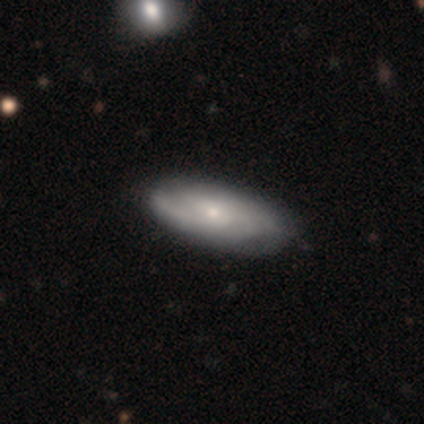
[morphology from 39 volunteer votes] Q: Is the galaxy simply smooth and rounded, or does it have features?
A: featured or disk — 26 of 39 (67%).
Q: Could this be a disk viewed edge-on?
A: no — 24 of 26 (92%).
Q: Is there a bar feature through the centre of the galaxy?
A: no — 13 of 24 (54%).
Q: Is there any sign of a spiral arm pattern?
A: yes — 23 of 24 (96%).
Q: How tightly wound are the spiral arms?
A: tight — 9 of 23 (39%, tied with medium).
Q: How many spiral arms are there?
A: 2 — 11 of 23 (48%).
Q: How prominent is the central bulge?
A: small — 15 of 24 (62%).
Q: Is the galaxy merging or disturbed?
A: none — 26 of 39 (67%).